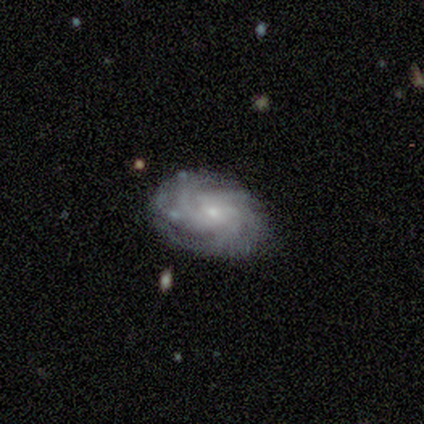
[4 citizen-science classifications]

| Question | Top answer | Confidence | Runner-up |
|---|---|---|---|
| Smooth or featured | featured or disk | 75% | star or artifact (25%) |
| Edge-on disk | no | 100% | — |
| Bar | no | 67% | weak (33%) |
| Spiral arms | yes | 100% | — |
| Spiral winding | tight | 100% | — |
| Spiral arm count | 3 | 67% | more than 4 (33%) |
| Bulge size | small | 100% | — |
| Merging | none | 100% | — |